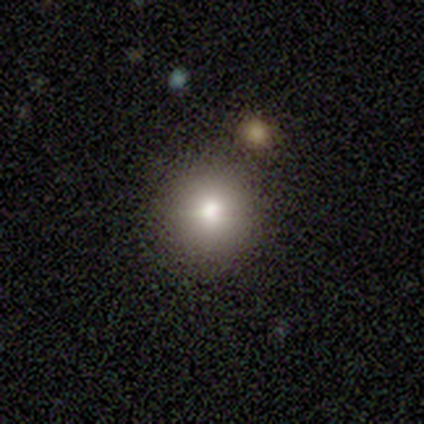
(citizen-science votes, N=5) Consensus on every question: smooth or featured — smooth (100%); how rounded — round (100%); merging — none (100%).